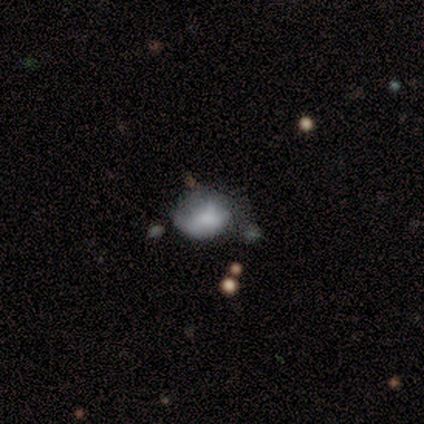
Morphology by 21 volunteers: A smooth galaxy with no disk features (62%) that is in between round and cigar-shaped (62%). Merging: none (38%, tied with minor disturbance).